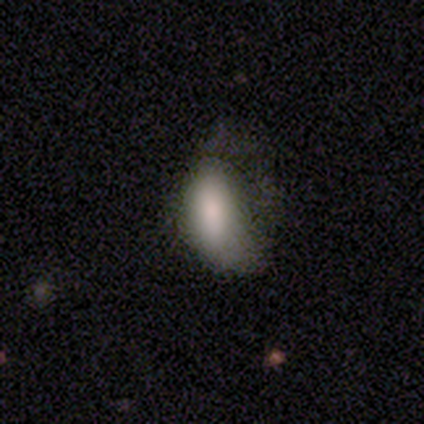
This appears to be a smooth galaxy with no disk features (74%) that is in between round and cigar-shaped (93%). Merging: minor disturbance (46%).